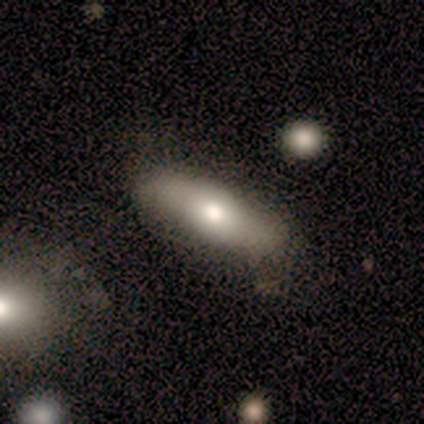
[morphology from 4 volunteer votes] smooth-or-featured: smooth: 50% (tied) | featured or disk: 50% (tied) | star or artifact: 0%
  how-rounded: in between: 50% (tied) | cigar-shaped: 50% (tied) | round: 0%
  merging: none: 75% | major disturbance: 25% | minor disturbance: 0% | merger: 0%